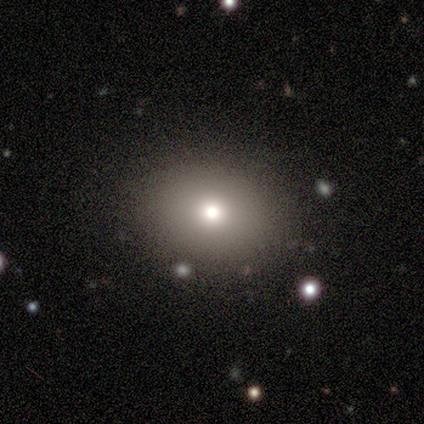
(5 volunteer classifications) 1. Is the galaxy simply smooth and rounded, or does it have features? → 80% smooth, 20% featured or disk, 0% star or artifact.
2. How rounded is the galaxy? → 75% round, 25% in between, 0% cigar-shaped.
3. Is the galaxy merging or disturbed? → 80% none, 20% major disturbance, 0% minor disturbance, 0% merger.